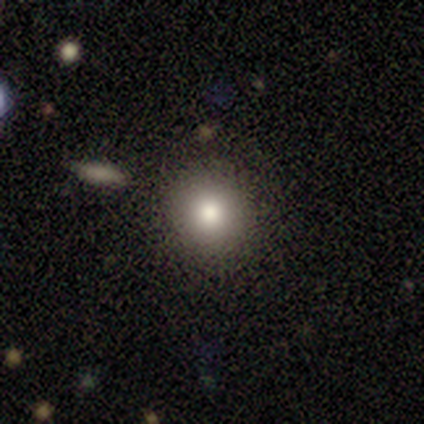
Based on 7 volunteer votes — Smooth or featured? 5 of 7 (71%) said smooth. How rounded? 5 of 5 (100%) said round. Merging? 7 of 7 (100%) said none.